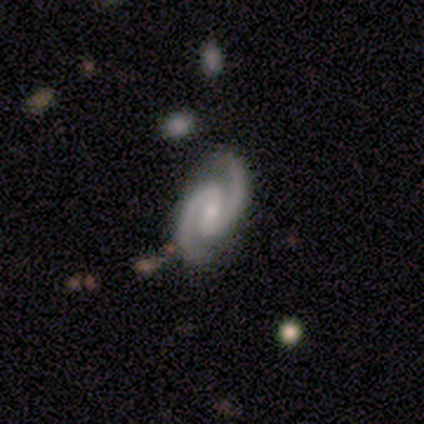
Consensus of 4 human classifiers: Morphology: type=featured or disk (100%); edge-on=no (100%); bar=strong (75%); spiral arms=yes (100%); winding=tight (50%, tied with medium); arm count=2 (100%); bulge=moderate (50%); merging=none (100%).